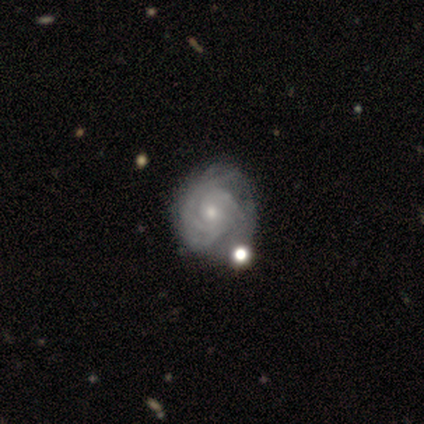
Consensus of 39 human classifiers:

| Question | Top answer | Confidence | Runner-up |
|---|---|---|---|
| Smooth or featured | featured or disk | 90% | smooth (8%) |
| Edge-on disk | no | 97% | yes (3%) |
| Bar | no | 74% | weak (15%) |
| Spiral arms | yes | 100% | — |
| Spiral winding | tight | 82% | medium (18%) |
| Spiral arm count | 3 | 41% | can't tell (35%) |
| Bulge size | small | 59% | moderate (35%) |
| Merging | none | 37% | minor disturbance (26%) |